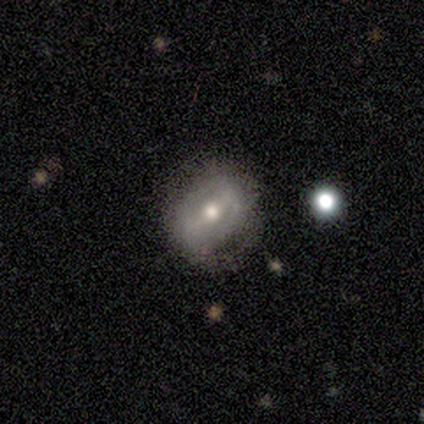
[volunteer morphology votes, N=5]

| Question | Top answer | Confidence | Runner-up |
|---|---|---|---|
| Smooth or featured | smooth | 60% | featured or disk (40%) |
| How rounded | in between | 67% | cigar-shaped (33%) |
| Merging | none | 40% | tied: minor disturbance (40%) |